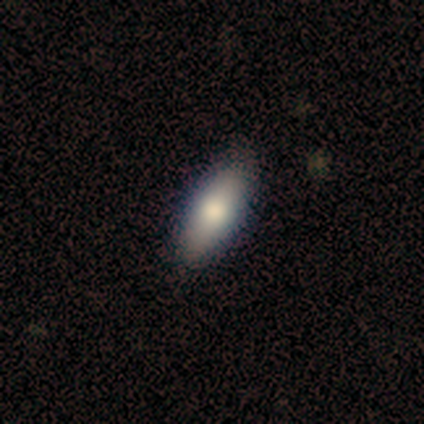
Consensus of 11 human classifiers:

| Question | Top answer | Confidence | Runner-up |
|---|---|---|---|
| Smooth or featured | smooth | 73% | featured or disk (18%) |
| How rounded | in between | 88% | round (12%) |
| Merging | none | 80% | minor disturbance (20%) |